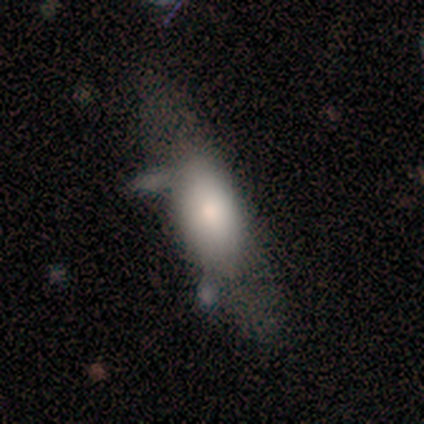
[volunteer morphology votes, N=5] A smooth galaxy with no disk features (80%) that is in between round and cigar-shaped (75%). Merging: none (80%).